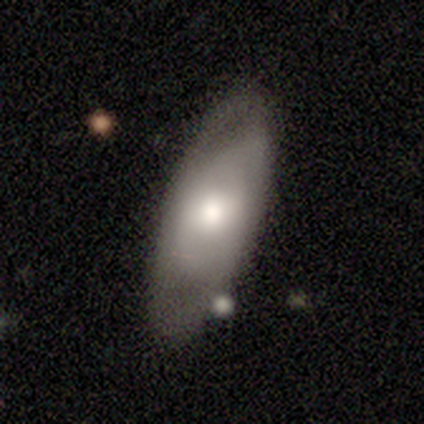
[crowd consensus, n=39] Q: Smooth or featured?
A: smooth (51%); runner-up: featured or disk (49%)
Q: How rounded?
A: in between (95%); runner-up: cigar-shaped (5%)
Q: Merging?
A: none (67%); runner-up: minor disturbance (21%)